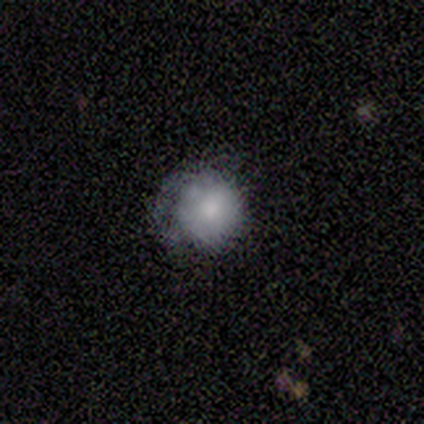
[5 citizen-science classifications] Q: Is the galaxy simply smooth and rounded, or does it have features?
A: smooth — 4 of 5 (80%).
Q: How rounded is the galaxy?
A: round — 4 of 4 (100%).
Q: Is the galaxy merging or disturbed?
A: none — 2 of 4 (50%).